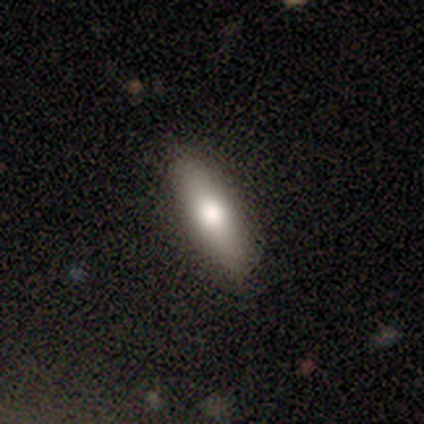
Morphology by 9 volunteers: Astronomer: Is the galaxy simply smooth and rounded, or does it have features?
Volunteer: smooth — 89%.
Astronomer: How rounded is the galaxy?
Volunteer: cigar-shaped — 62%.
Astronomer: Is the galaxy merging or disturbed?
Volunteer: none — 100%.